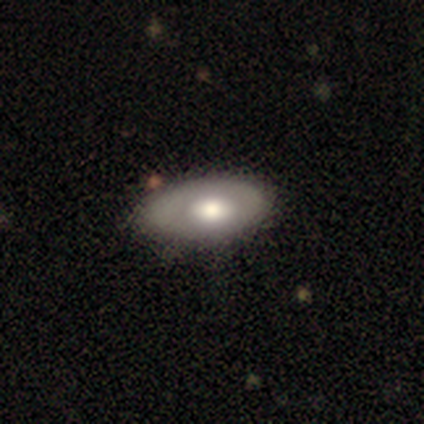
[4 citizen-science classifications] This appears to be a smooth galaxy with no disk features (75%) that is in between round and cigar-shaped (100%). Merging: none (50%).